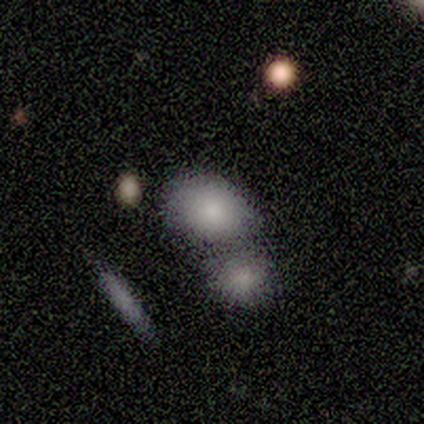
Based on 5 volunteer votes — smooth 100%, featured or disk 0%, star or artifact 0%. Down the decision tree: how rounded — round (60%); merging — none (60%).